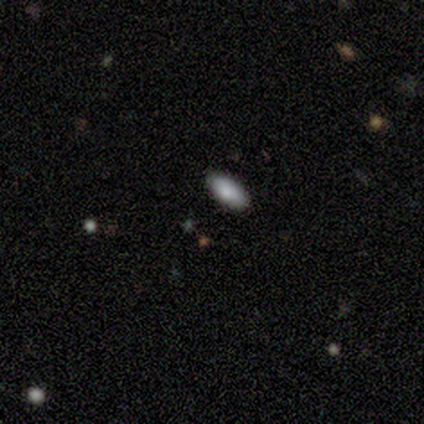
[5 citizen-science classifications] smooth-or-featured: smooth: 80% | star or artifact: 20% | featured or disk: 0%
  how-rounded: in between: 75% | cigar-shaped: 25% | round: 0%
  merging: none: 100% | minor disturbance: 0% | major disturbance: 0% | merger: 0%